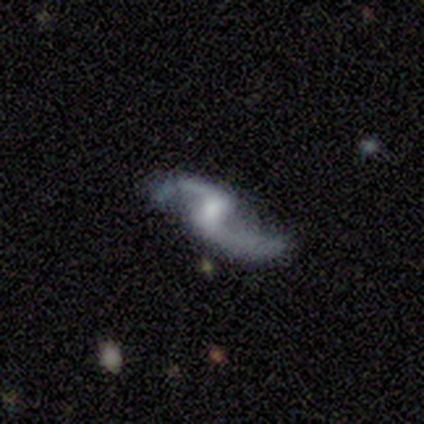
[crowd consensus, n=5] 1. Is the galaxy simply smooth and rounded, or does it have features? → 80% featured or disk, 20% smooth, 0% star or artifact.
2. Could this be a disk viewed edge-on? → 100% no, 0% yes.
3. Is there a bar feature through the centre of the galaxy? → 75% no, 25% weak, 0% strong.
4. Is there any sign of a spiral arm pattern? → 100% yes, 0% no.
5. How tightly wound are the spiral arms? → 100% loose, 0% tight, 0% medium.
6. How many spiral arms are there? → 100% 2, 0% 1, 0% 3, 0% 4, 0% more than 4, 0% can't tell.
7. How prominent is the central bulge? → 50% small, 25% moderate, 25% none, 0% dominant, 0% large.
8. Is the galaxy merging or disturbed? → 100% none, 0% minor disturbance, 0% major disturbance, 0% merger.